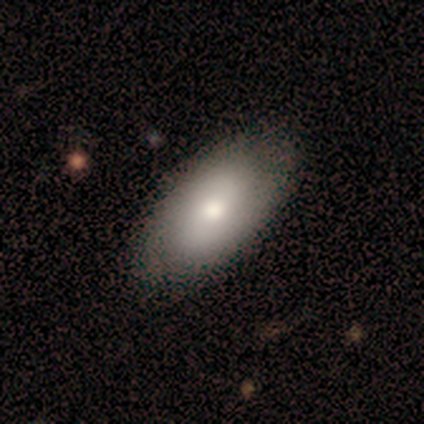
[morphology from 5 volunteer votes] This appears to be a smooth galaxy with no disk features (60%) that is in between round and cigar-shaped (100%). Merging: none (80%).